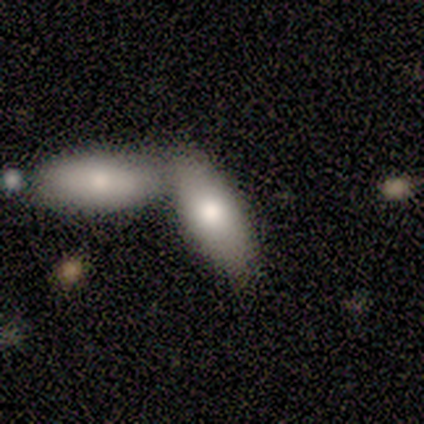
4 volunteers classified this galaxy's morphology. smooth_or_featured: smooth (p=1.00)
how_rounded: in between (p=1.00)
merging: merger (p=0.75) [alt: none p=0.25]